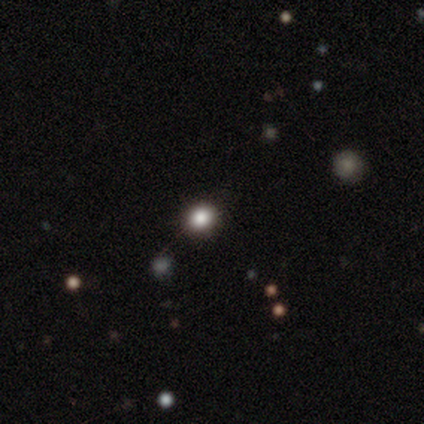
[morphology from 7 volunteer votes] This appears to be a smooth galaxy with no disk features (57%) that is round (100%). Merging: none (100%).